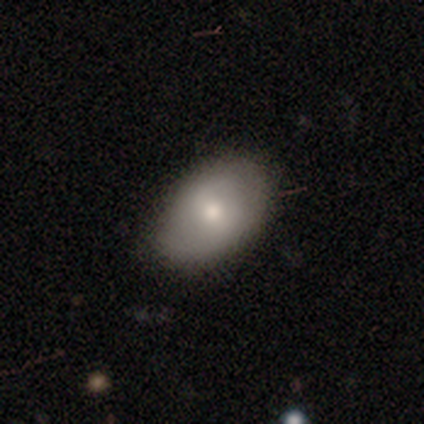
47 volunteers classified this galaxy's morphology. This is likely a smooth galaxy (79%). How rounded: clearly in between (92%). Merging: likely none (77%).